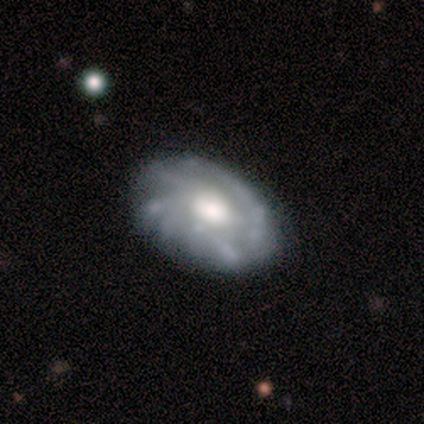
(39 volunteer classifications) Smooth or featured? 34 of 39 (87%) said featured or disk. Edge-on disk? 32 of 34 (94%) said no. Bar? 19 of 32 (59%) said no. Spiral arms? 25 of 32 (78%) said yes. Spiral winding? 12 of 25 (48%) said medium. Spiral arm count? 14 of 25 (56%) said can't tell. Bulge size? 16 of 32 (50%) said moderate. Merging? 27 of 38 (71%) said none.